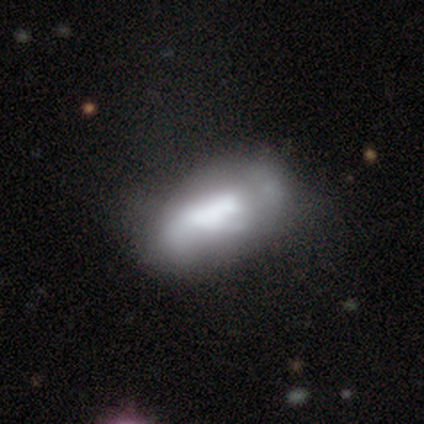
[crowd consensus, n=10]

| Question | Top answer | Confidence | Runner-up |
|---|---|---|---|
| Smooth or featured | smooth | 60% | featured or disk (40%) |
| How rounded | in between | 83% | cigar-shaped (17%) |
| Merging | minor disturbance | 40% | none (30%) |